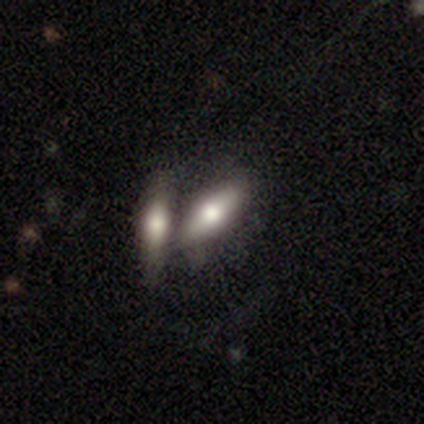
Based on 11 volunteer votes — smooth-or-featured: featured or disk: 55% | smooth: 45% | star or artifact: 0%
  disk-edge-on: yes: 83% | no: 17%
    edge-on-bulge: rounded: 80% | boxy: 20% | none: 0%
  merging: none: 55% | merger: 45% | minor disturbance: 0% | major disturbance: 0%